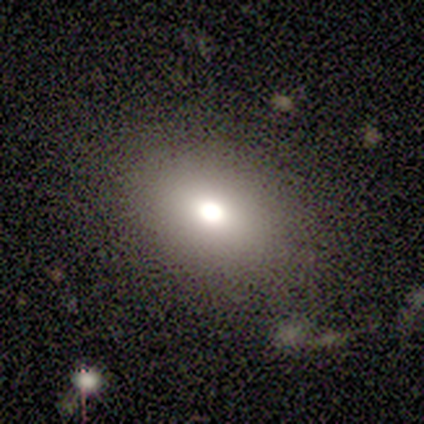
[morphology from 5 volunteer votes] Overall: smooth (60%; star or artifact 40%). How rounded: in between (100%). Merging: none (100%).